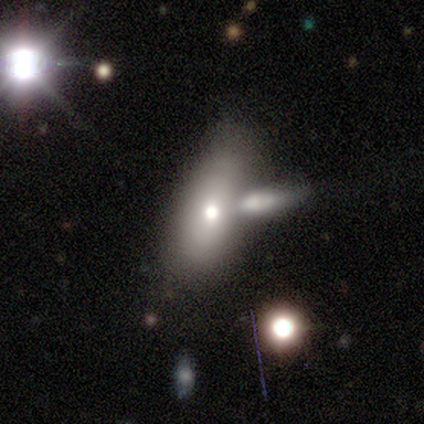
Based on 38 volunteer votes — Q: Smooth or featured?
A: smooth (63%); runner-up: featured or disk (24%)
Q: How rounded?
A: in between (79%); runner-up: cigar-shaped (17%)
Q: Merging?
A: merger (48%); runner-up: none (30%)